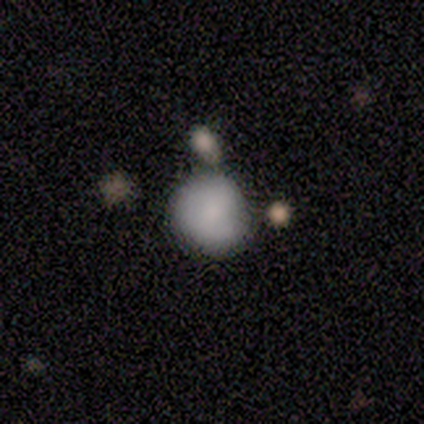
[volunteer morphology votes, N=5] Overall: smooth (60%; featured or disk 20%). How rounded: round (100%). Merging: minor disturbance (75%).